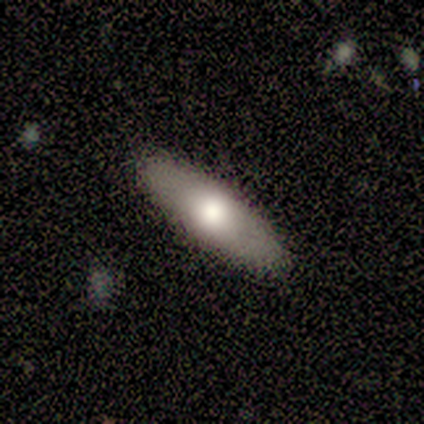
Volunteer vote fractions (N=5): Smooth or featured? 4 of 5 (80%) said featured or disk. Edge-on disk? 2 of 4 (50%, tied with no) said yes. Edge-on bulge? 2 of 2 (100%) said rounded. Merging? 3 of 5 (60%) said none.